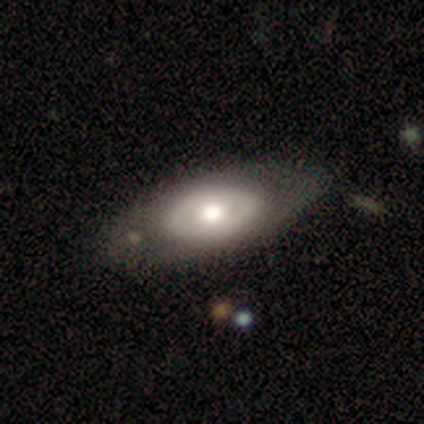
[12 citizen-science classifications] Volunteers were most divided on "smooth or featured": featured or disk: 50%, smooth: 42%, star or artifact: 8%. More confident: bar — no (100%); edge-on disk — no (83%); merging — none (82%); spiral arms — no (80%); bulge size — moderate (80%).